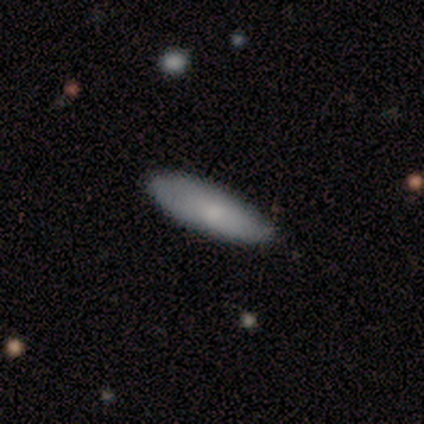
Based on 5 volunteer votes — smooth_or_featured: smooth (p=0.80) [alt: featured or disk p=0.20]
how_rounded: in between (p=1.00)
merging: none (p=0.60) [alt: minor disturbance p=0.40]